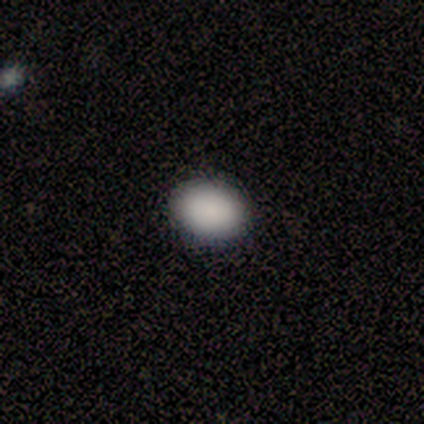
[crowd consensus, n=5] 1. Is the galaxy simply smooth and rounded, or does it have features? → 80% smooth, 20% featured or disk, 0% star or artifact.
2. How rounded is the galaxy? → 50% round (tied), 50% in between (tied), 0% cigar-shaped.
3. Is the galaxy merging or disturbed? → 80% none, 20% merger, 0% minor disturbance, 0% major disturbance.